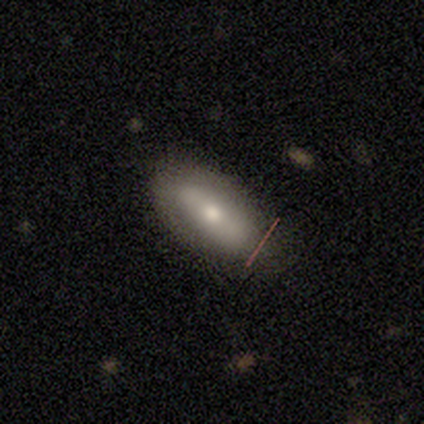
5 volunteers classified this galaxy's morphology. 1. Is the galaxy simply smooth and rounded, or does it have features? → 60% smooth, 40% featured or disk, 0% star or artifact.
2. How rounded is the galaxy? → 67% in between, 33% cigar-shaped, 0% round.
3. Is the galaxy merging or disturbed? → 80% none, 20% minor disturbance, 0% major disturbance, 0% merger.